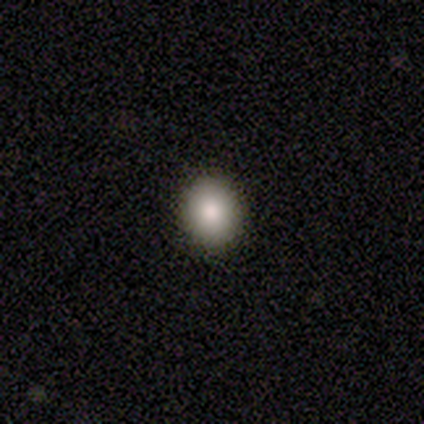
A smooth galaxy with no disk features (75%) that is round (67%).

Vote fractions:
- Smooth or featured? smooth: 75% / featured or disk: 25% / star or artifact: 0%
- How rounded? round: 67% / in between: 33% / cigar-shaped: 0%
- Merging? none: 88% / major disturbance: 12% / minor disturbance: 0% / merger: 0%